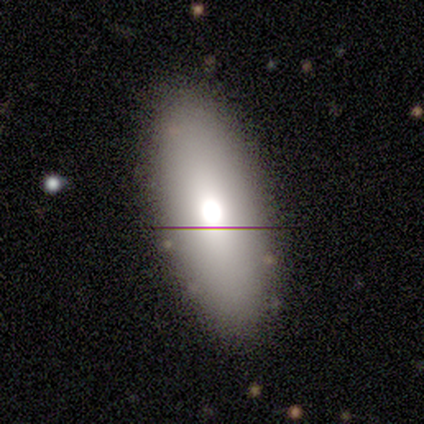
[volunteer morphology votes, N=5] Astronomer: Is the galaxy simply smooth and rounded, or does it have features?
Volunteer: smooth — 80%.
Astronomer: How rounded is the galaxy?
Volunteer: in between — 75%.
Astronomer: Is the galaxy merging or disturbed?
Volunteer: none — 80%.